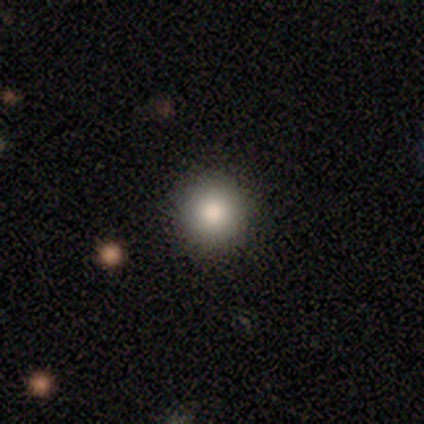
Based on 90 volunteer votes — This appears to be a smooth galaxy with no disk features (82%) that is round (97%). Merging: none (96%).